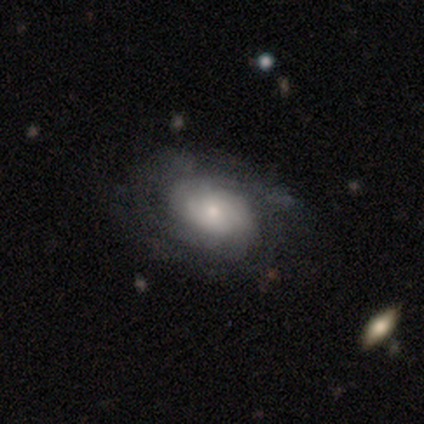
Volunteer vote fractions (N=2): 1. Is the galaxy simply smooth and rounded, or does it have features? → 50% smooth (tied), 50% featured or disk (tied), 0% star or artifact.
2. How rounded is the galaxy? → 100% in between, 0% round, 0% cigar-shaped.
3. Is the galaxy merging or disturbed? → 100% none, 0% minor disturbance, 0% major disturbance, 0% merger.